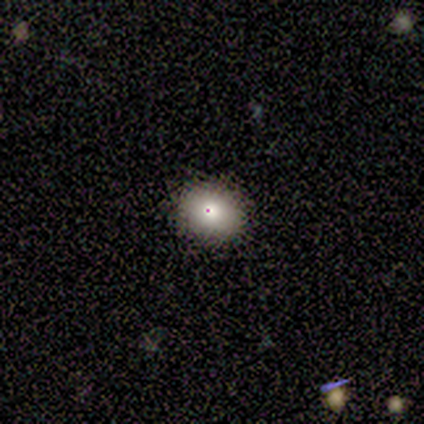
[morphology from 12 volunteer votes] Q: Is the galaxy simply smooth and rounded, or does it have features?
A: smooth — 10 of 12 (83%).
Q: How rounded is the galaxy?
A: round — 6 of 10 (60%).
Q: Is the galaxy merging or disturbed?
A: none — 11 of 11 (100%).